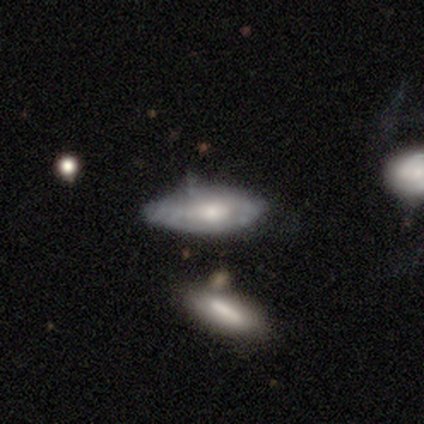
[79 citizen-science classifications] A smooth galaxy with no disk features (56%) that is in between round and cigar-shaped (75%).

Vote fractions:
- Smooth or featured? smooth: 56% / featured or disk: 42% / star or artifact: 3%
- How rounded? in between: 75% / cigar-shaped: 23% / round: 2%
- Merging? minor disturbance: 29% / none: 22% / merger: 13% / major disturbance: 0%